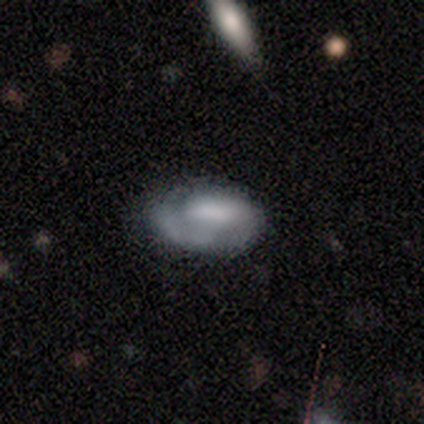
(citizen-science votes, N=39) Overall: featured or disk (69%). Edge-on disk: no (85%). Bar: no (61%; weak 30%). Spiral arms: yes (78%). Spiral arm count: 1 (33%, tied with can't tell). Spiral winding: medium (44%; tight 28%). Bulge size: none (35%; moderate 26%). Merging: none (62%; minor disturbance 24%).